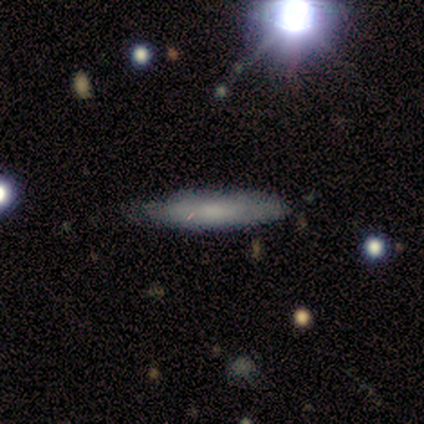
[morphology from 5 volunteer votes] Volunteers were most divided on "how rounded": cigar-shaped: 67%, in between: 33%, round: 0%. More confident: merging — none (100%); smooth or featured — smooth (60%).